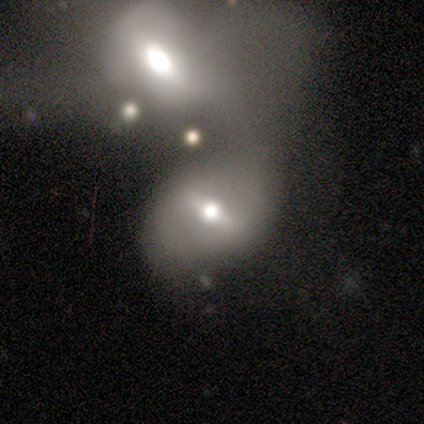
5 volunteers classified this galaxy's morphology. Smooth or featured?
  - featured or disk: 100% *
  - smooth: 0%
  - star or artifact: 0%
Edge-on disk?
  - no: 100% *
  - yes: 0%
Bar?
  - weak: 60% *
  - strong: 40%
  - no: 0%
Spiral arms?
  - no: 80% *
  - yes: 20%
Bulge size?
  - moderate: 100% *
  - dominant: 0%
  - large: 0%
  - small: 0%
  - none: 0%
Merging?
  - none: 40% * (tied)
  - merger: 40% * (tied)
  - major disturbance: 20%
  - minor disturbance: 0%